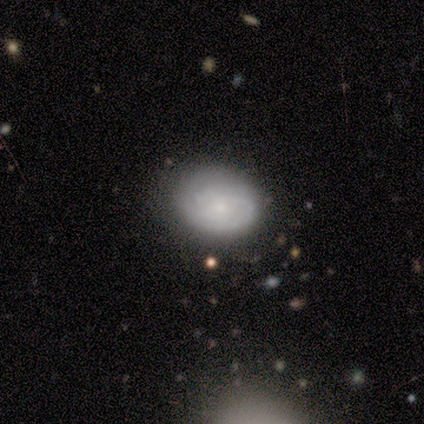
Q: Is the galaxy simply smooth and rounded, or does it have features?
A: featured or disk — 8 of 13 (62%).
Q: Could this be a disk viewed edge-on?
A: no — 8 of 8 (100%).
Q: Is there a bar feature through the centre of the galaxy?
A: no — 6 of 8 (75%).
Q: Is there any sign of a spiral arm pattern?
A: yes — 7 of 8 (88%).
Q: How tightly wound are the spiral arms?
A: medium — 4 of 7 (57%).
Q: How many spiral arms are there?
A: can't tell — 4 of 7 (57%).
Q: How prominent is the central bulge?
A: small — 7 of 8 (88%).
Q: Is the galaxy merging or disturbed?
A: none — 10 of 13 (77%).